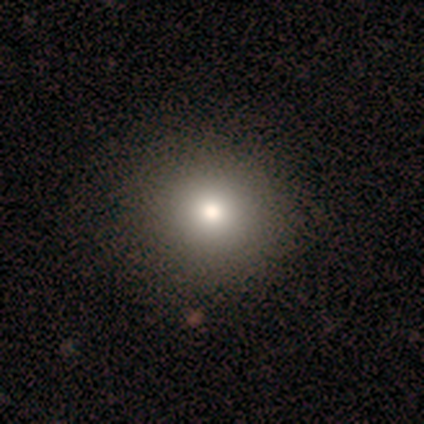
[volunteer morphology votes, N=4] Smooth or featured: smooth — 75% (featured or disk — 25%)
How rounded: round — 67% (in between — 33%)
Merging: none — 75% (minor disturbance — 25%)